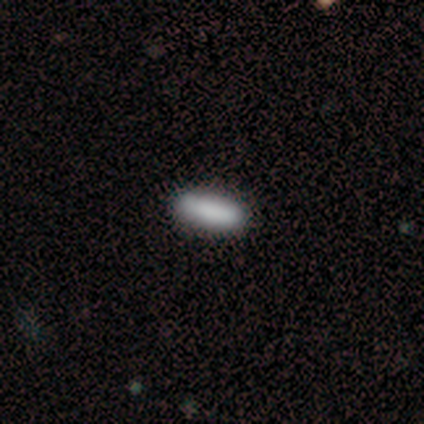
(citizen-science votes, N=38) smooth 92%, featured or disk 5%, star or artifact 3%. Down the decision tree: how rounded — in between (51%); merging — none (95%).